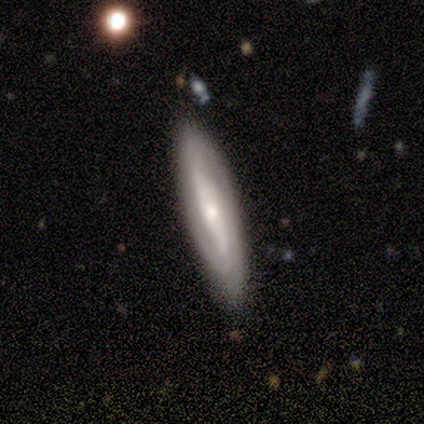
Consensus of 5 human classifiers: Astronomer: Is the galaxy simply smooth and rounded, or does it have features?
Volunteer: featured or disk — 60% (runner-up: smooth, 40%).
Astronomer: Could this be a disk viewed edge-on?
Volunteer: no — 67%.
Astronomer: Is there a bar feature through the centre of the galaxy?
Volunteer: strong — 50%, tied with weak at 50%.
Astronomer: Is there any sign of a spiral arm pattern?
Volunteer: yes — 100%.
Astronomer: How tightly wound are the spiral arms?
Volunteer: tight — 50%, tied with medium at 50%.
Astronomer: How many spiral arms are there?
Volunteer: can't tell — 100%.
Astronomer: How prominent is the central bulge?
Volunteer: moderate — 50%, tied with small at 50%.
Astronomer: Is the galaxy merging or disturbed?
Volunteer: none — 80%.